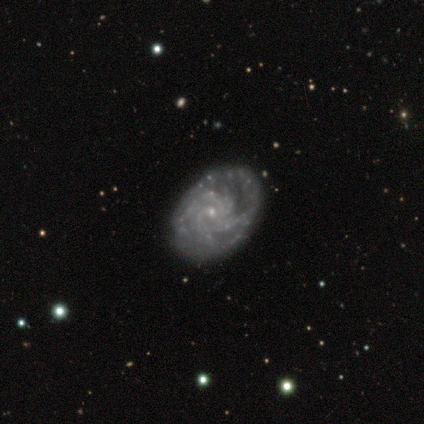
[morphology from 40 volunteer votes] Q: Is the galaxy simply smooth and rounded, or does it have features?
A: featured or disk — 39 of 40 (98%).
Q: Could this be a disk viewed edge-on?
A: no — 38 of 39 (97%).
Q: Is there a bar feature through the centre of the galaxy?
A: no — 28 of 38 (74%).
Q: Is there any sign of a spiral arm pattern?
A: yes — 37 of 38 (97%).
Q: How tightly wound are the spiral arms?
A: tight — 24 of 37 (65%).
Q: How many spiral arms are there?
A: can't tell — 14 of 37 (38%).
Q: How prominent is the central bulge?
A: small — 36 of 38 (95%).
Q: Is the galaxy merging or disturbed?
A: none — 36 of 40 (90%).